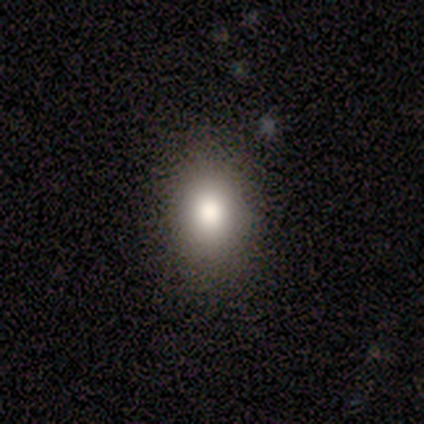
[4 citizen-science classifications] Volunteers were most divided on "how rounded" (2-way tie): round: 50%, in between: 50%, cigar-shaped: 0%. More confident: smooth or featured — smooth (100%); merging — none (100%).